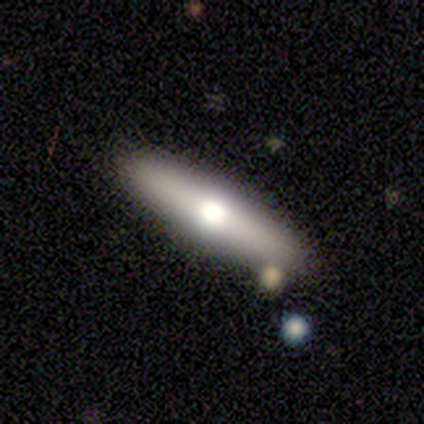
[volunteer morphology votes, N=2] A smooth galaxy with no disk features (50%, tied with featured or disk) that is cigar-shaped (100%).

Vote fractions:
- Smooth or featured? smooth: 50% (tied) / featured or disk: 50% (tied) / star or artifact: 0%
- How rounded? cigar-shaped: 100% / round: 0% / in between: 0%
- Merging? none: 100% / minor disturbance: 0% / major disturbance: 0% / merger: 0%